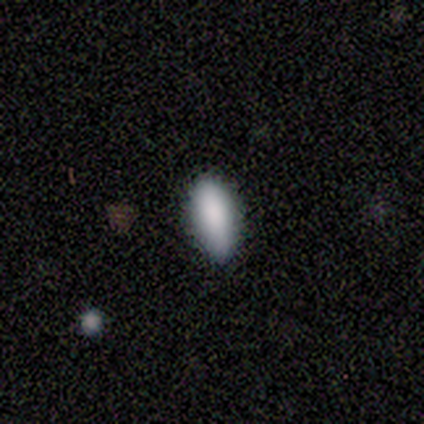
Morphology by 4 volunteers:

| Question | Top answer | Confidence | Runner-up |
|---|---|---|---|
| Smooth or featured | smooth | 100% | — |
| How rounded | in between | 100% | — |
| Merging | none | 75% | minor disturbance (25%) |